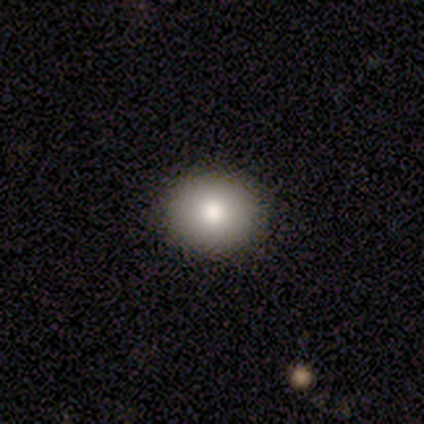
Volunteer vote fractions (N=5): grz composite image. It shows a smooth galaxy with no disk features (100%) that is round (80%). Merging: none (100%).